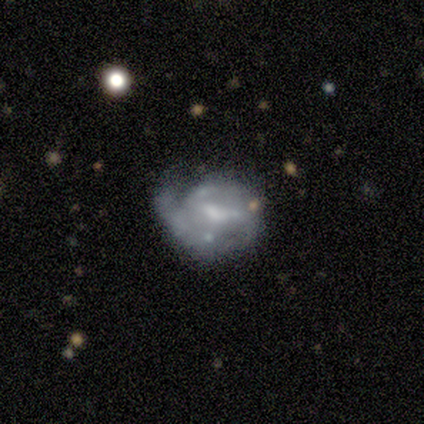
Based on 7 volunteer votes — Volunteers were most divided on "spiral winding" (2-way tie): tight: 50%, medium: 50%, loose: 0%; "bulge size" (2-way tie): small: 33%, none: 33%, large: 17%, moderate: 17%, dominant: 0%. Remaining: edge-on disk — no (100%); smooth or featured — featured or disk (86%); spiral arm count — can't tell (75%); spiral arms — yes (67%); bar — strong (50%); merging — none (43%).